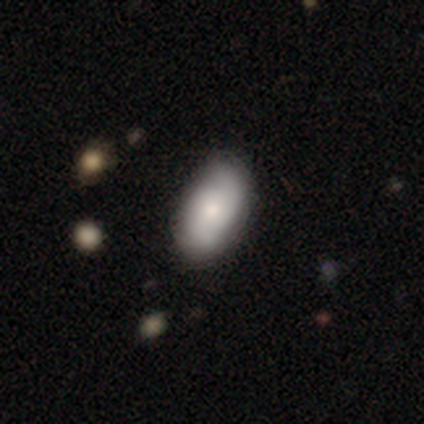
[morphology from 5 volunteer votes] Smooth or featured? smooth (60%)
How rounded? in between (100%)
Merging? none (75%)